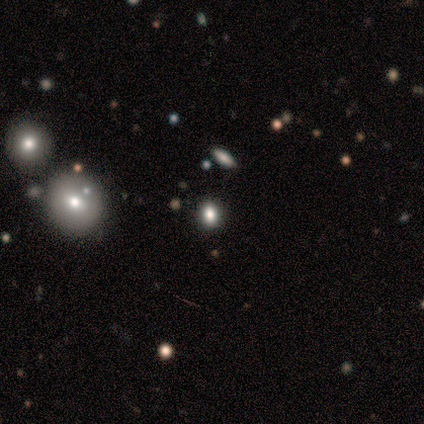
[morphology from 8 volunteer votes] Smooth or featured? 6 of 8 (75%) said smooth. How rounded? 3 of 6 (50%) said round. Merging? 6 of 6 (100%) said none.